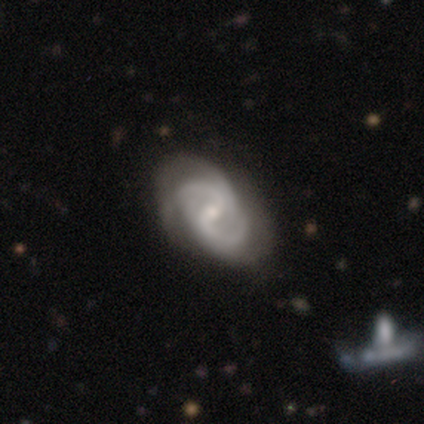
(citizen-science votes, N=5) Smooth or featured: featured or disk — 100%
Edge-on disk: no — 100%
Bar: weak — 60% (no — 40%)
Spiral arms: yes — 100%
Spiral winding: loose — 60% (tight — 20%)
Spiral arm count: can't tell — 60% (2 — 20%)
Bulge size: small — 60% (moderate — 40%)
Merging: none — 80% (major disturbance — 20%)